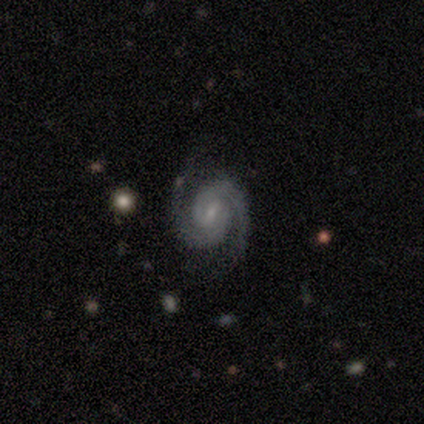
A featured or disk galaxy (92%) with a weak bar (57%), 2 (94%) tight (49%) spiral arms (100%) and a small central bulge (74%). Merging: none (84%).